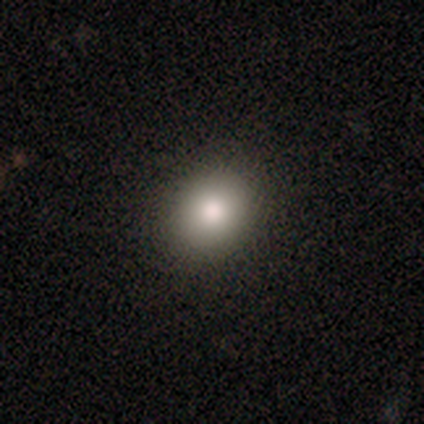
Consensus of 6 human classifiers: Overall: smooth (100%). How rounded: round (83%). Merging: none (83%).